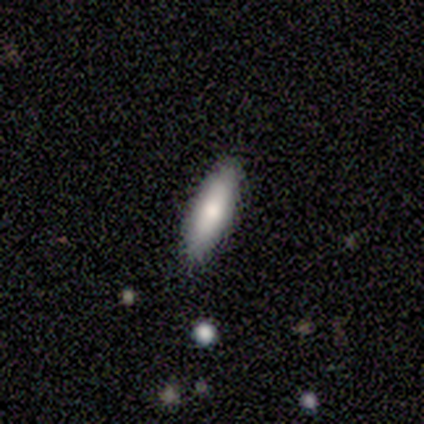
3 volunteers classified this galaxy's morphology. Q: Smooth or featured?
A: smooth (100%)
Q: How rounded?
A: cigar-shaped (100%)
Q: Merging?
A: none (100%)